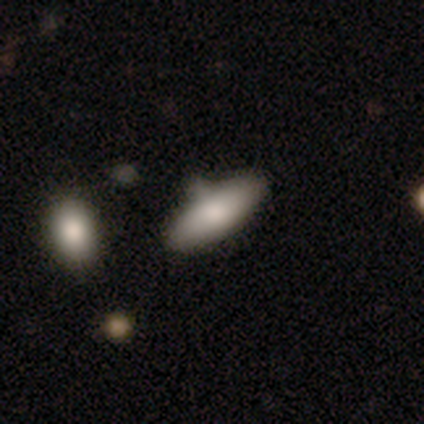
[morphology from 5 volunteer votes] A smooth galaxy with no disk features (80%) that is in between round and cigar-shaped (50%, tied with cigar-shaped).

Vote fractions:
- Smooth or featured? smooth: 80% / star or artifact: 20% / featured or disk: 0%
- How rounded? in between: 50% (tied) / cigar-shaped: 50% (tied) / round: 0%
- Merging? none: 75% / minor disturbance: 25% / major disturbance: 0% / merger: 0%